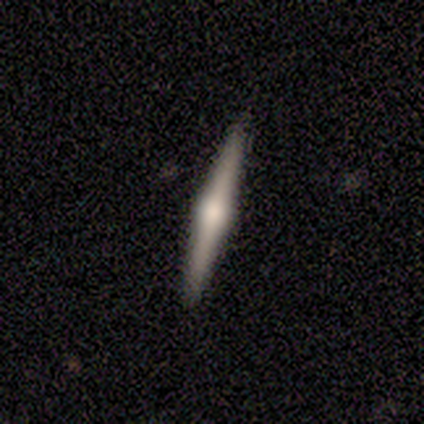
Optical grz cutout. It shows a featured or disk galaxy (80%) viewed edge-on (100%) with a rounded central bulge (100%). Merging: none (100%).